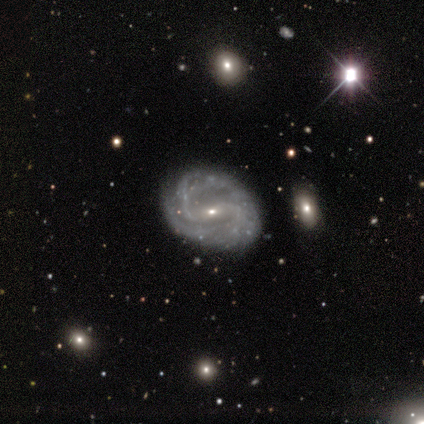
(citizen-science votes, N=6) This appears to be a featured or disk galaxy (100%) with a weak bar (83%), 2 (83%) loose (67%) spiral arms (100%) and a small central bulge (83%). Merging: none (100%).